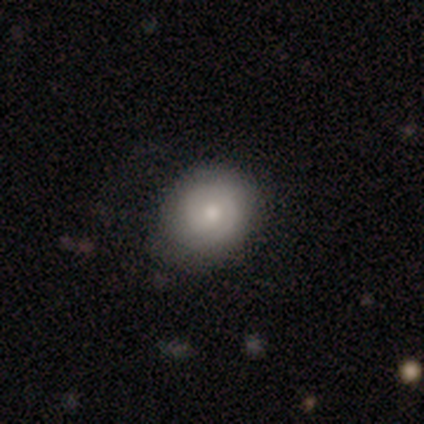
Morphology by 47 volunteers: Smooth or featured? 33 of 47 (70%) said smooth. How rounded? 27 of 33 (82%) said round. Merging? 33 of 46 (72%) said none.